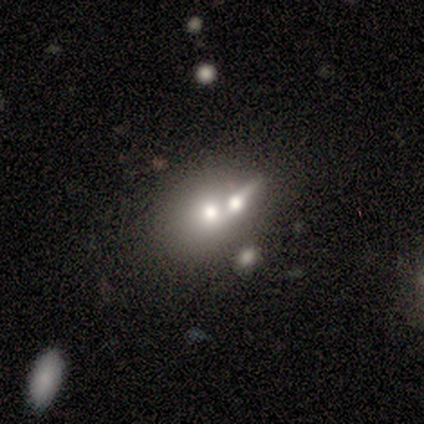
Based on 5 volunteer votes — Smooth or featured?
  - smooth: 60% *
  - featured or disk: 40%
  - star or artifact: 0%
How rounded?
  - round: 67% *
  - in between: 33%
  - cigar-shaped: 0%
Merging?
  - merger: 60% *
  - none: 20%
  - major disturbance: 20%
  - minor disturbance: 0%